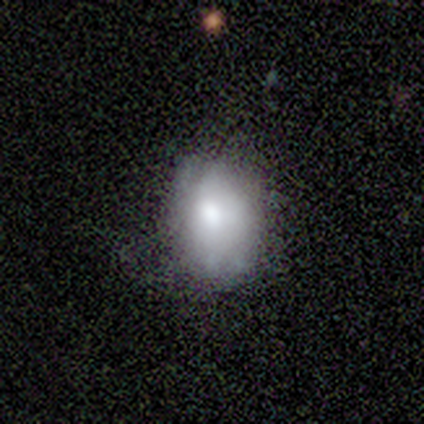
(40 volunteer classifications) smooth-or-featured: smooth: 68% | featured or disk: 28% | star or artifact: 5%
  how-rounded: in between: 63% | round: 37% | cigar-shaped: 0%
  merging: none: 55% | minor disturbance: 26% | major disturbance: 16% | merger: 3%